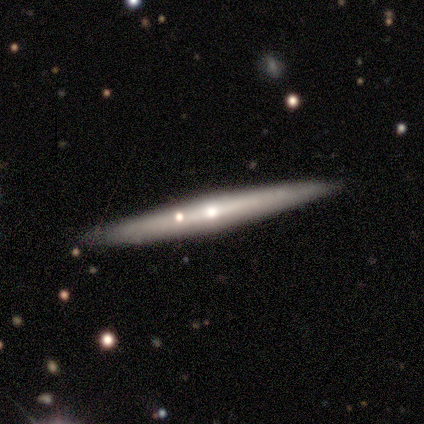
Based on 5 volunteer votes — smooth_or_featured: featured or disk (p=0.80) [alt: smooth p=0.20]
disk_edge_on: yes (p=0.75) [alt: no p=0.25]
edge_on_bulge: rounded (p=1.00)
merging: none (p=1.00)